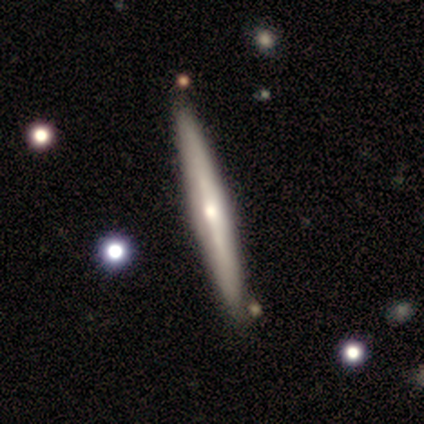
smooth_or_featured: featured or disk (p=0.57) [alt: star or artifact p=0.29]
disk_edge_on: yes (p=1.00)
edge_on_bulge: none (p=0.50) [tied with: rounded p=0.50]
merging: none (p=0.80) [alt: major disturbance p=0.20]